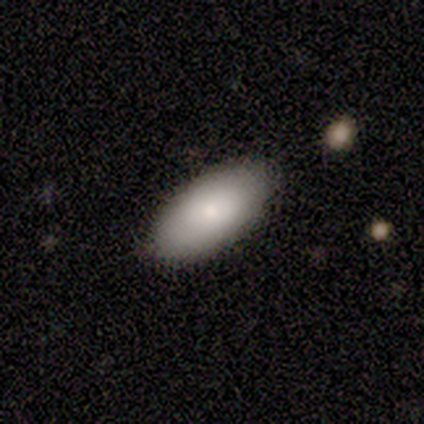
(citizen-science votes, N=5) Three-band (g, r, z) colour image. It shows a smooth galaxy with no disk features (100%) that is in between round and cigar-shaped (80%). Merging: none (100%).